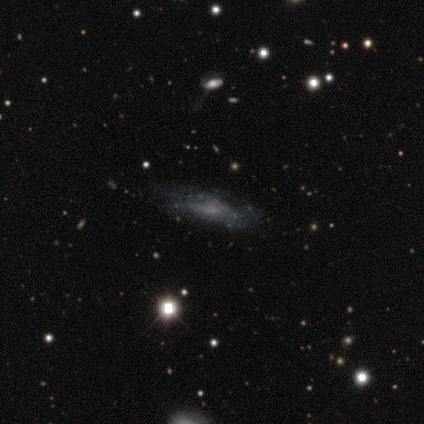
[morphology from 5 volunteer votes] Smooth or featured?
  - featured or disk: 60% *
  - smooth: 40%
  - star or artifact: 0%
Edge-on disk?
  - no: 67% *
  - yes: 33%
Bar?
  - no: 100% *
  - strong: 0%
  - weak: 0%
Spiral arms?
  - no: 100% *
  - yes: 0%
Bulge size?
  - small: 50% * (tied)
  - none: 50% * (tied)
  - dominant: 0%
  - large: 0%
  - moderate: 0%
Merging?
  - none: 80% *
  - minor disturbance: 20%
  - major disturbance: 0%
  - merger: 0%